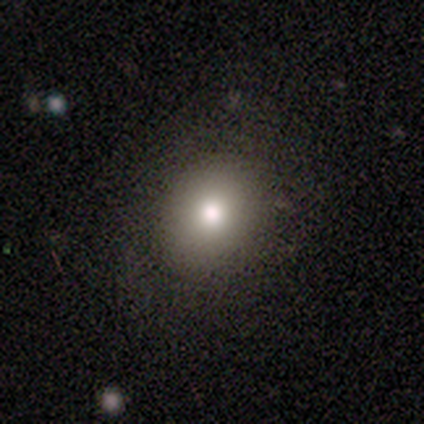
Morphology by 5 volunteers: This appears to be a smooth galaxy with no disk features (100%) that is round (60%). Merging: none (100%).